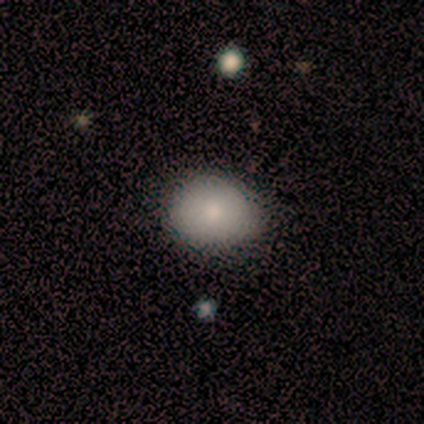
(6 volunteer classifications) Volunteers were most divided on "how rounded" (2-way tie): round: 50%, in between: 50%, cigar-shaped: 0%; "merging" (2-way tie): none: 50%, minor disturbance: 50%, major disturbance: 0%, merger: 0%. More confident: smooth or featured — smooth (100%).